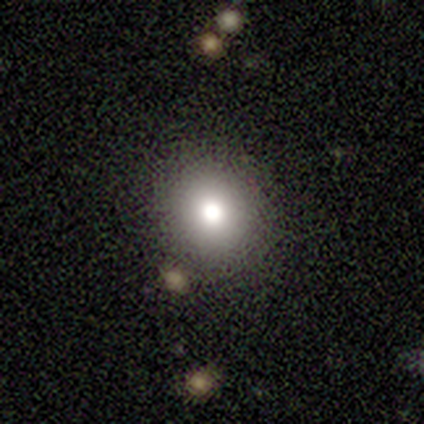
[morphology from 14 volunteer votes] Smooth or featured: smooth — 71% (featured or disk — 21%)
How rounded: round — 90% (in between — 10%)
Merging: none — 92% (minor disturbance — 8%)